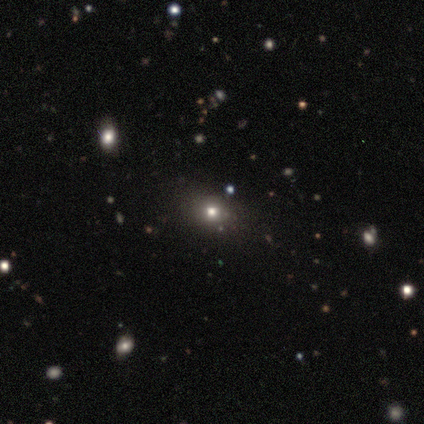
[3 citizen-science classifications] A featured or disk galaxy (67%) viewed edge-on (50%, tied with no) with a rounded central bulge (100%).

Vote fractions:
- Smooth or featured? featured or disk: 67% / star or artifact: 33% / smooth: 0%
- Edge-on disk? yes: 50% (tied) / no: 50% (tied)
- Edge-on bulge? rounded: 100% / boxy: 0% / none: 0%
- Merging? minor disturbance: 100% / none: 0% / major disturbance: 0% / merger: 0%